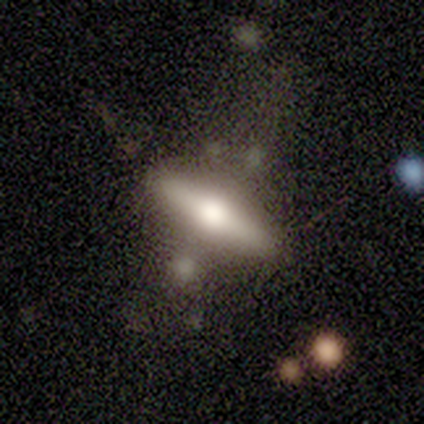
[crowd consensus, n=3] smooth_or_featured: smooth (p=0.67) [alt: featured or disk p=0.33]
how_rounded: cigar-shaped (p=1.00)
merging: minor disturbance (p=0.67) [alt: none p=0.33]